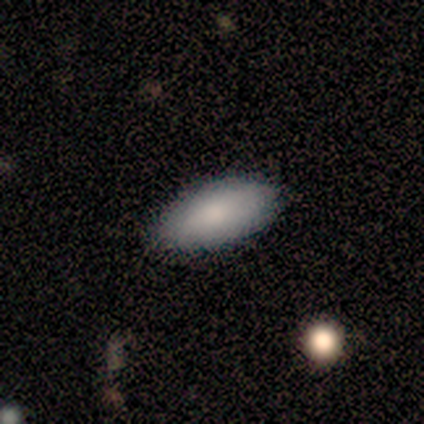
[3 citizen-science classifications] Volunteers were most divided on "smooth or featured": star or artifact: 67%, smooth: 33%, featured or disk: 0%.